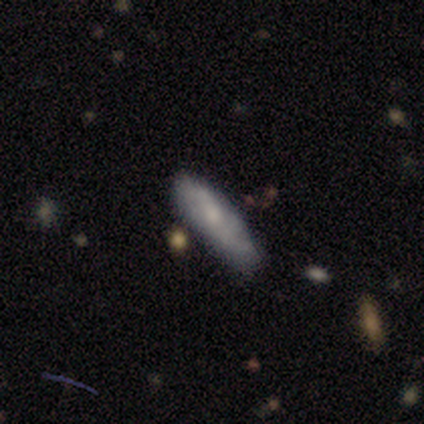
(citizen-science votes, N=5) Morphology: type=smooth (40%, tied with featured or disk); roundness=cigar-shaped (100%); merging=minor disturbance (50%).